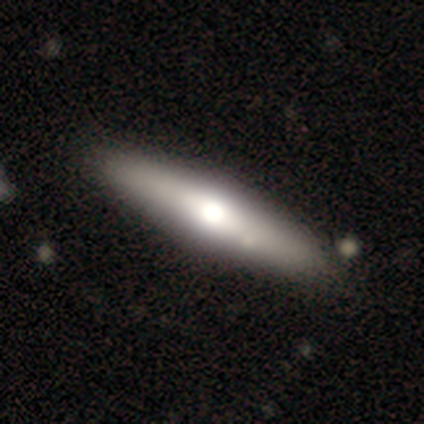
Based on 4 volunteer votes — Morphology: type=featured or disk (50%); edge-on=yes (100%); edge-on bulge=rounded (100%); merging=none (67%).